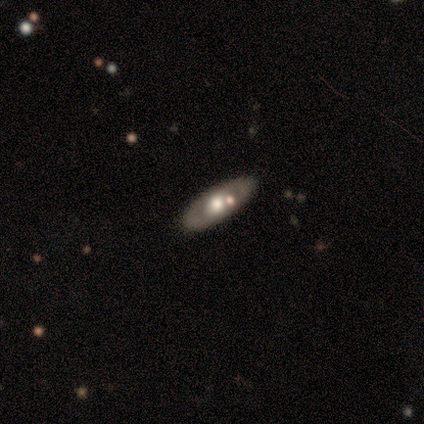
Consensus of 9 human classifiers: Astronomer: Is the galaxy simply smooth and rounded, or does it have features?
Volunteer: smooth — 67%.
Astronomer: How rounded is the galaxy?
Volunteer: in between — 67%.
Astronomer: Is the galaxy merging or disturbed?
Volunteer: none — 78%.